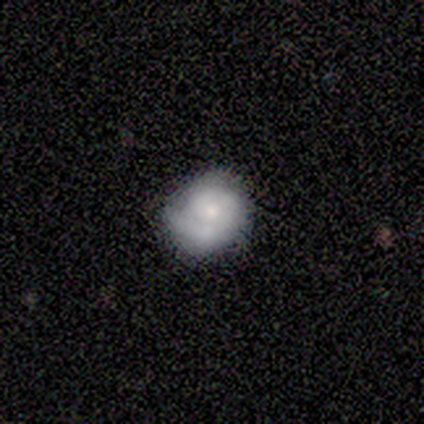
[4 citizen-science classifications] Smooth or featured?
  - featured or disk: 75% *
  - smooth: 25%
  - star or artifact: 0%
Edge-on disk?
  - no: 100% *
  - yes: 0%
Bar?
  - no: 100% *
  - strong: 0%
  - weak: 0%
Spiral arms?
  - yes: 67% *
  - no: 33%
Spiral winding?
  - tight: 100% *
  - medium: 0%
  - loose: 0%
Spiral arm count?
  - 1: 100% *
  - 2: 0%
  - 3: 0%
  - 4: 0%
  - more than 4: 0%
  - can't tell: 0%
Bulge size?
  - small: 67% *
  - none: 33%
  - dominant: 0%
  - large: 0%
  - moderate: 0%
Merging?
  - none: 100% *
  - minor disturbance: 0%
  - major disturbance: 0%
  - merger: 0%